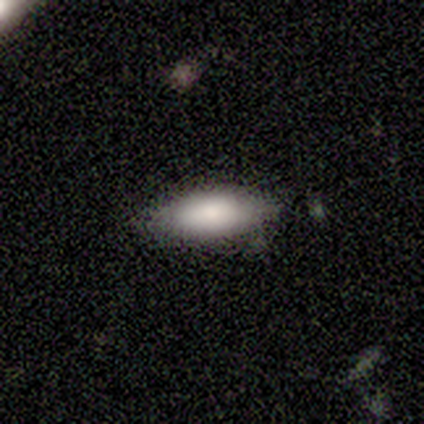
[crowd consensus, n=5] This is clearly a smooth galaxy (80%). How rounded: possibly in between (50%, tied with cigar-shaped). Merging: clearly none (100%).